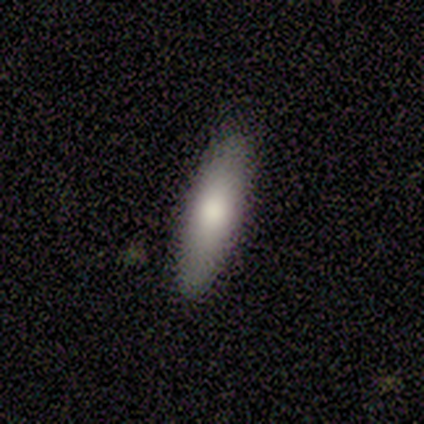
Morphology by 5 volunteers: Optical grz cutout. It shows a featured or disk galaxy (40%, tied with star or artifact) with no bar (100%), no spiral arms (100%) and a small central bulge (100%). Merging: none (33%, tied with minor disturbance and major disturbance).